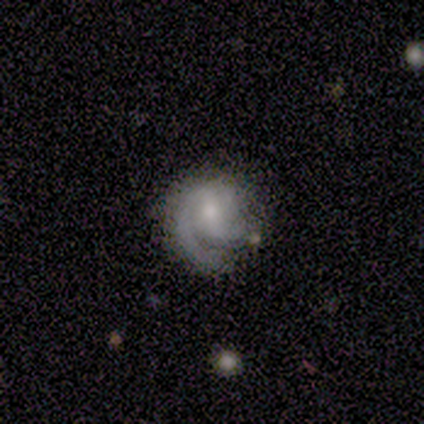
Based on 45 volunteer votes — Smooth or featured? 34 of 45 (76%) said featured or disk. Edge-on disk? 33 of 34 (97%) said no. Bar? 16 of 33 (48%) said no. Spiral arms? 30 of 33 (91%) said yes. Spiral winding? 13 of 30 (43%, tied with medium) said tight. Spiral arm count? 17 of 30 (57%) said 2. Bulge size? 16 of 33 (48%) said moderate. Merging? 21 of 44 (48%) said none.